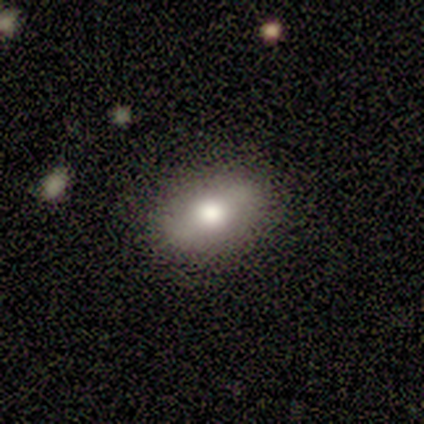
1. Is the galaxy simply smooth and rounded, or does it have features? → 75% featured or disk, 25% smooth, 0% star or artifact.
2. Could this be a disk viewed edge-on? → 100% no, 0% yes.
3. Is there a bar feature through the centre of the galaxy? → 33% strong (tied), 33% weak (tied), 33% no (tied).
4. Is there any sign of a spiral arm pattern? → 100% no, 0% yes.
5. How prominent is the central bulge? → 67% moderate, 33% large, 0% dominant, 0% small, 0% none.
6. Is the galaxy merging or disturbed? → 50% none, 25% minor disturbance, 25% major disturbance, 0% merger.